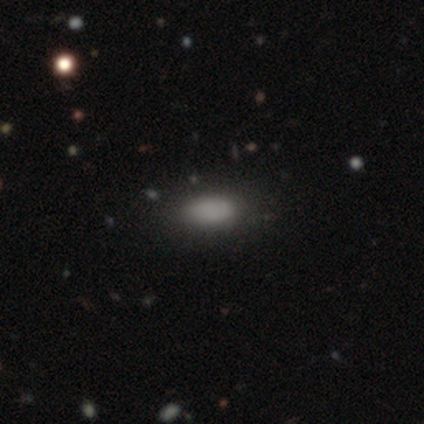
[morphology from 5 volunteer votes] A smooth galaxy with no disk features (100%) that is in between round and cigar-shaped (100%). Merging: none (100%).